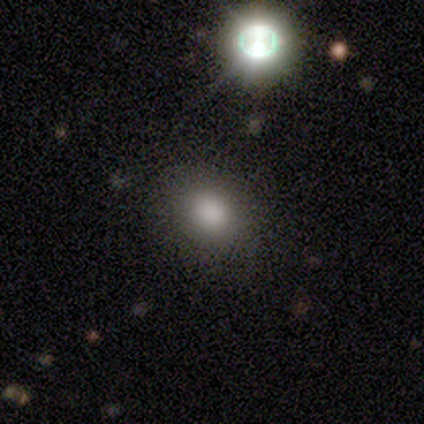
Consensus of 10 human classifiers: This is clearly a smooth galaxy (80%). How rounded: clearly in between (88%). Merging: clearly none (88%).